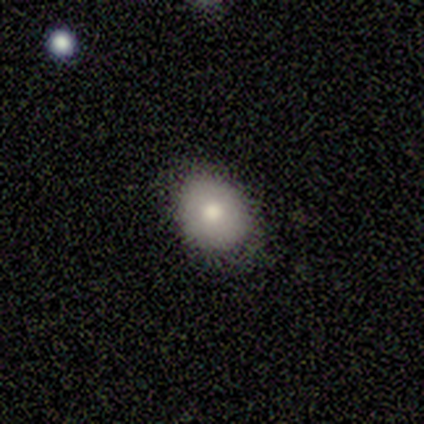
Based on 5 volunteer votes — smooth 100%, featured or disk 0%, star or artifact 0%. Down the decision tree: how rounded — in between (80%); merging — none (80%).